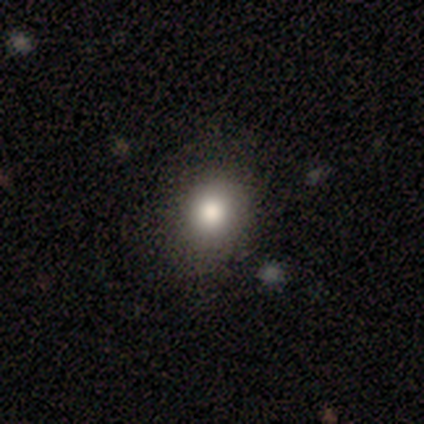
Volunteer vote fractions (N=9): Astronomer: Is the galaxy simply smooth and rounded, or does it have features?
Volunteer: smooth — 78%.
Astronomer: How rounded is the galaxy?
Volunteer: in between — 57% (runner-up: round, 43%).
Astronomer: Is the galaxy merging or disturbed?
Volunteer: none — 75%.